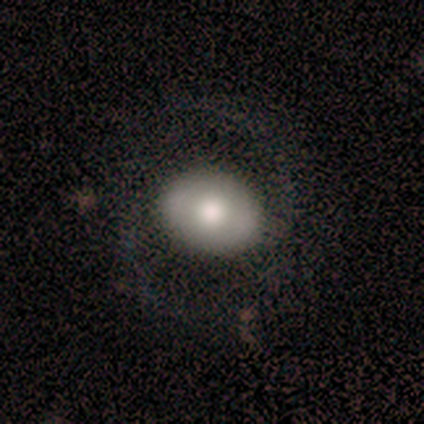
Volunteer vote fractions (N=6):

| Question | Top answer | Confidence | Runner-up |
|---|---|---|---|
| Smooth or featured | featured or disk | 67% | smooth (33%) |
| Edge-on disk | no | 100% | — |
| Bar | no | 50% | strong (25%) |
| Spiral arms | yes | 75% | no (25%) |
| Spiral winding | loose | 67% | medium (33%) |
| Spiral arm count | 2 | 100% | — |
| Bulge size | moderate | 50% | large (25%) |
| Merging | none | 83% | minor disturbance (17%) |